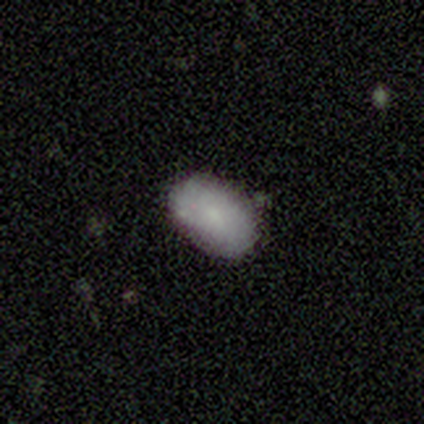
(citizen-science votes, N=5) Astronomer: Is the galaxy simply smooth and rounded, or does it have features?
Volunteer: smooth — 80%.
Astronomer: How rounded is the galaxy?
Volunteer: in between — 100%.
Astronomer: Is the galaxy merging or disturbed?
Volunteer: none — 75%.